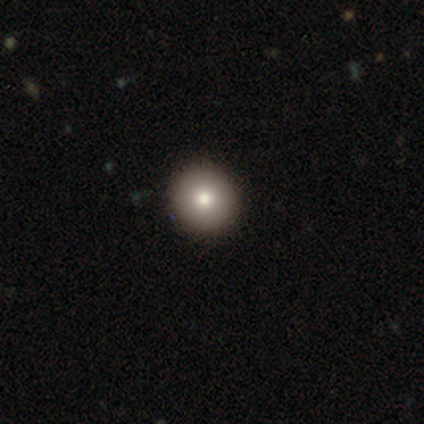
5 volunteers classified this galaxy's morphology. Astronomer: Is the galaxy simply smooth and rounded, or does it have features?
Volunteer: smooth — 40%, tied with featured or disk at 40%.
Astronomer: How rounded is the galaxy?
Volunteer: in between — 100%.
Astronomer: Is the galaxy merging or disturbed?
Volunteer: none — 100%.